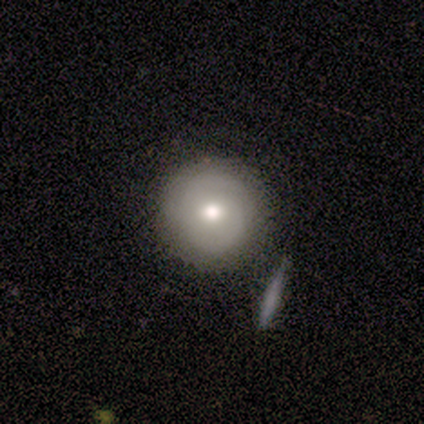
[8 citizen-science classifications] smooth 100%, featured or disk 0%, star or artifact 0%. Down the decision tree: how rounded — round (100%); merging — none (62%).